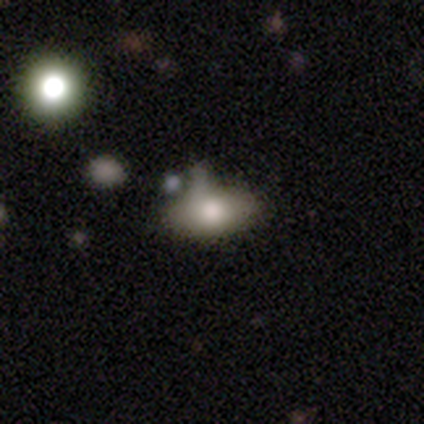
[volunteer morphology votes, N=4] Overall: smooth (100%). How rounded: in between (100%). Merging: none (50%, tied with minor disturbance).